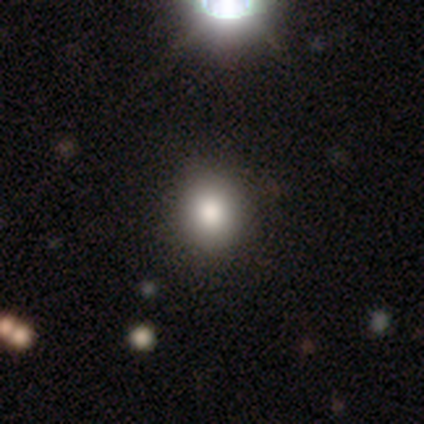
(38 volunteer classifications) Q: Smooth or featured?
A: smooth (84%); runner-up: star or artifact (13%)
Q: How rounded?
A: round (75%); runner-up: in between (25%)
Q: Merging?
A: none (64%); runner-up: merger (3%)